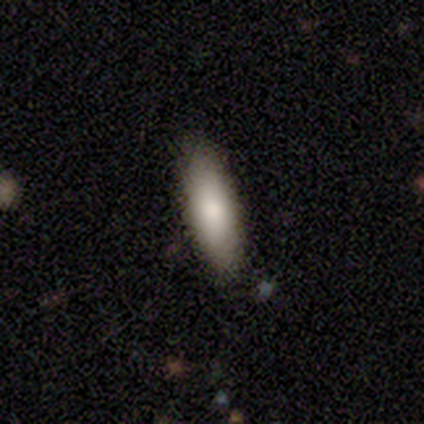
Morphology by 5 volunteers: This appears to be a smooth galaxy with no disk features (80%) that is in between round and cigar-shaped (75%). Merging: none (100%).